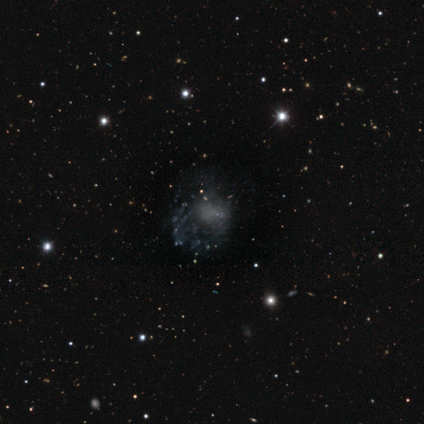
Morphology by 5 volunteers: Smooth or featured: featured or disk — 60% (smooth — 20%)
Edge-on disk: no — 100%
Bar: no — 100%
Spiral arms: no — 67% (yes — 33%)
Bulge size: none — 100%
Merging: major disturbance — 75% (none — 25%)